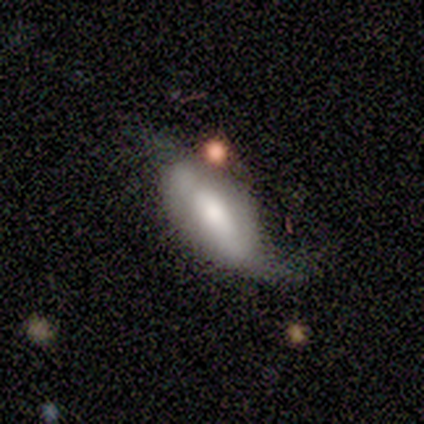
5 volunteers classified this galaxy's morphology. Smooth or featured?
  - featured or disk: 60% *
  - smooth: 40%
  - star or artifact: 0%
Edge-on disk?
  - no: 100% *
  - yes: 0%
Bar?
  - no: 67% *
  - strong: 33%
  - weak: 0%
Spiral arms?
  - yes: 67% *
  - no: 33%
Spiral winding?
  - loose: 100% *
  - tight: 0%
  - medium: 0%
Spiral arm count?
  - 1: 50% * (tied)
  - 2: 50% * (tied)
  - 3: 0%
  - 4: 0%
  - more than 4: 0%
  - can't tell: 0%
Bulge size?
  - moderate: 100% *
  - dominant: 0%
  - large: 0%
  - small: 0%
  - none: 0%
Merging?
  - none: 60% *
  - minor disturbance: 40%
  - major disturbance: 0%
  - merger: 0%